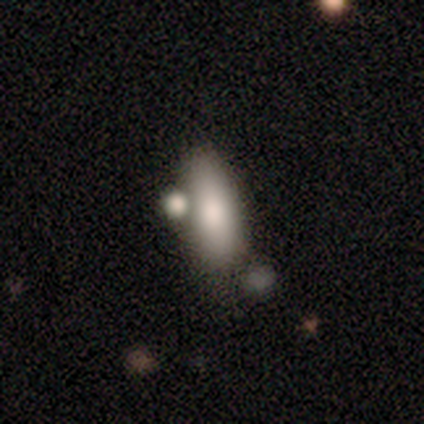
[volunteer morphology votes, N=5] smooth 60%, featured or disk 20%, star or artifact 20%. Down the decision tree: how rounded — in between (67%); merging — minor disturbance (50%).